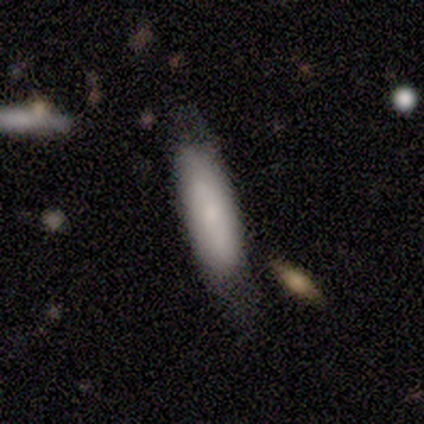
Smooth or featured? 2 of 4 (50%) said featured or disk. Edge-on disk? 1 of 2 (50%, tied with no) said yes. Edge-on bulge? 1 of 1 (100%) said none. Merging? 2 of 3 (67%) said none.